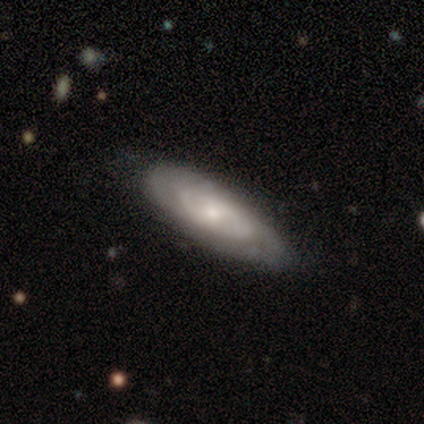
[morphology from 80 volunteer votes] This is likely a featured or disk galaxy (72%). It is clearly not viewed edge-on (84%). Bar: likely no (73%). Spiral arm pattern: likely yes (69%). Spiral arm count: possibly can't tell (59%). Spiral winding: likely tight (76%). Central bulge: possibly small (53%). Merging: marginally none (38%).